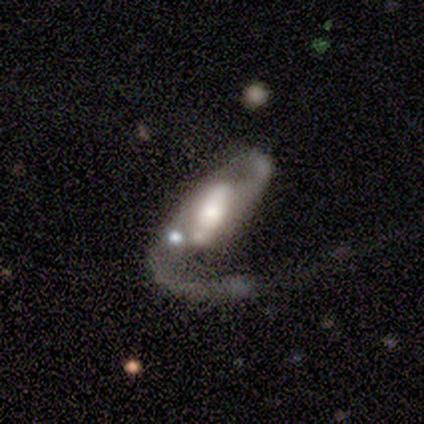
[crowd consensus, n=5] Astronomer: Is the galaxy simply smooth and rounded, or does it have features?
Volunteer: featured or disk — 100%.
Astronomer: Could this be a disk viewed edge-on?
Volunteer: no — 100%.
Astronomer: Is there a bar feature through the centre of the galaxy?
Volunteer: strong — 60% (runner-up: weak, 40%).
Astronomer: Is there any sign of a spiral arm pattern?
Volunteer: yes — 80%.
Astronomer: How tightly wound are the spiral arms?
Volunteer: loose — 75%.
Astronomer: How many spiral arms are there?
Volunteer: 1 — 50%, tied with 2 at 50%.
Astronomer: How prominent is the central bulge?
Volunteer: moderate — 60% (runner-up: large, 40%).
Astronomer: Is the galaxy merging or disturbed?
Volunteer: major disturbance — 60%.